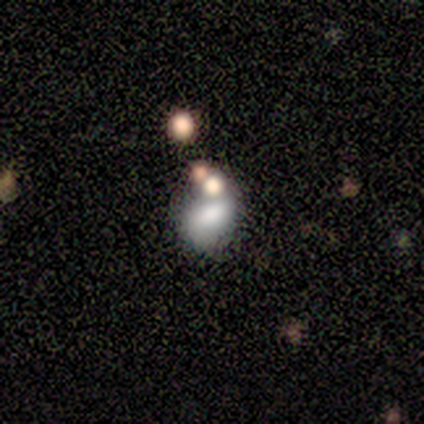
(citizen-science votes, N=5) smooth_or_featured: star or artifact (p=0.60) [alt: smooth p=0.20]